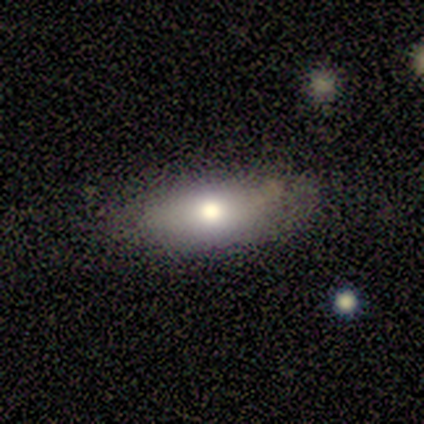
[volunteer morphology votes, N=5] Smooth or featured? smooth (60%)
How rounded? in between (67%)
Merging? none (50%, tied with minor disturbance)